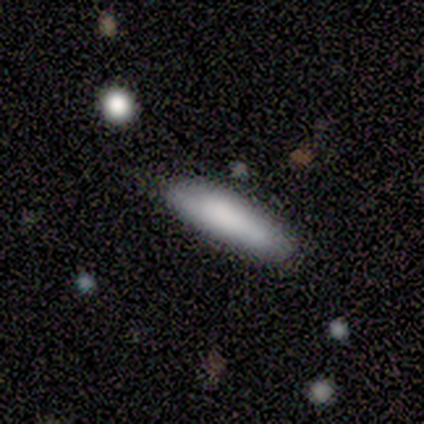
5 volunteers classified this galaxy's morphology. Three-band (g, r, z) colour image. It shows a smooth galaxy with no disk features (80%) that is cigar-shaped (75%). Merging: none (60%).